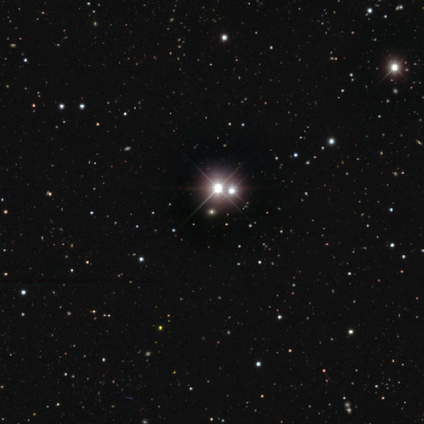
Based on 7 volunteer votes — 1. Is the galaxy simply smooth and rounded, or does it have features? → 86% star or artifact, 14% smooth, 0% featured or disk.